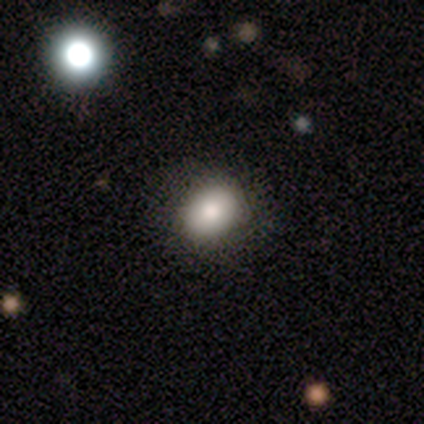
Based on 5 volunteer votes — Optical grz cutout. It shows a smooth galaxy with no disk features (60%) that is in between round and cigar-shaped (67%). Merging: none (100%).